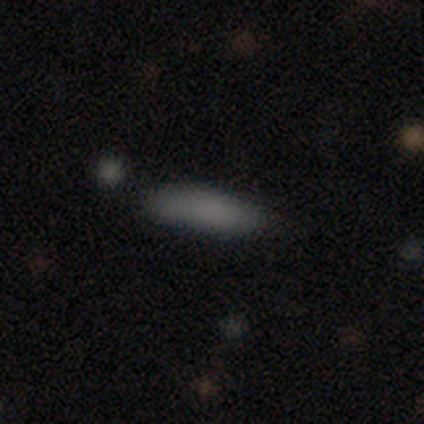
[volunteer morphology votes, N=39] A smooth galaxy with no disk features (92%) that is cigar-shaped (64%).

Vote fractions:
- Smooth or featured? smooth: 92% / featured or disk: 5% / star or artifact: 3%
- How rounded? cigar-shaped: 64% / in between: 36% / round: 0%
- Merging? none: 76% / minor disturbance: 16% / major disturbance: 5% / merger: 3%